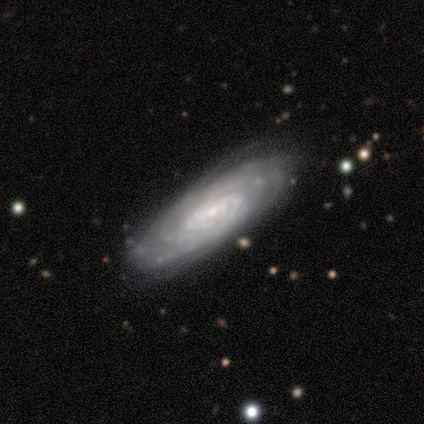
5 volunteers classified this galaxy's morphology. This appears to be a featured or disk galaxy (100%) with no bar (100%), 4 (50%) tight (100%) spiral arms (100%) and a small central bulge (75%). Merging: none (80%).